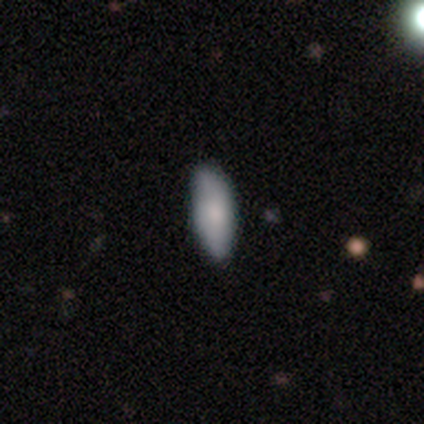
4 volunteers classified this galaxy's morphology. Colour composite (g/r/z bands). It shows a smooth galaxy with no disk features (75%) that is in between round and cigar-shaped (67%). Merging: minor disturbance (75%).